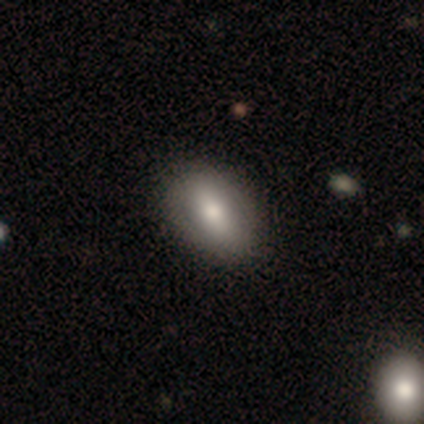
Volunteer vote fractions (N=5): A smooth galaxy with no disk features (80%) that is in between round and cigar-shaped (100%).

Vote fractions:
- Smooth or featured? smooth: 80% / featured or disk: 20% / star or artifact: 0%
- How rounded? in between: 100% / round: 0% / cigar-shaped: 0%
- Merging? none: 80% / major disturbance: 20% / minor disturbance: 0% / merger: 0%